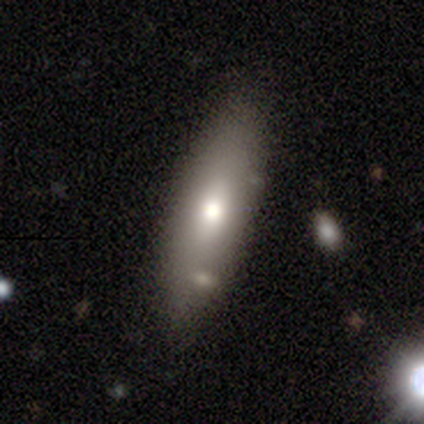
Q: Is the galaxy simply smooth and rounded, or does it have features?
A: smooth — 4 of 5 (80%).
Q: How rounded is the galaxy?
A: in between — 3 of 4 (75%).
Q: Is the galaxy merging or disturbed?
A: none — 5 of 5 (100%).